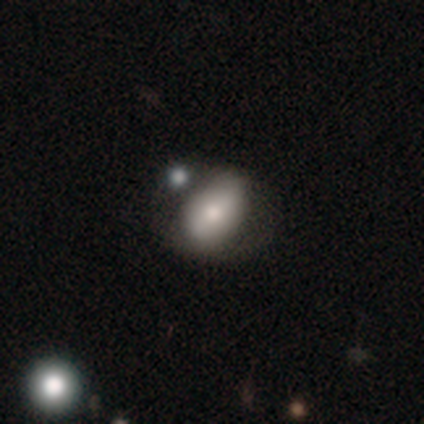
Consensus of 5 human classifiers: A featured or disk galaxy (60%) with no bar (67%), no spiral arms (67%) and a large central bulge (33%, tied with moderate and small). Merging: none (80%).